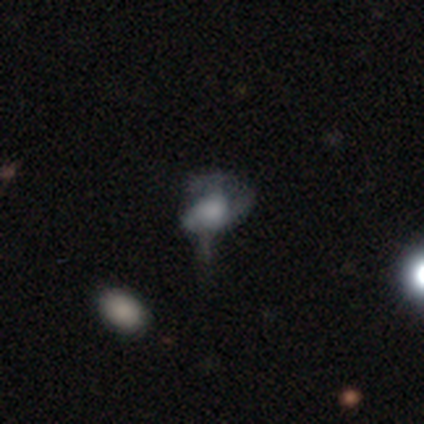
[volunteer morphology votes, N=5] A featured or disk galaxy (100%) with no bar (80%), 1 (100%) tight (75%) spiral arms (80%) and a large central bulge (40%, tied with moderate). Merging: minor disturbance (40%).